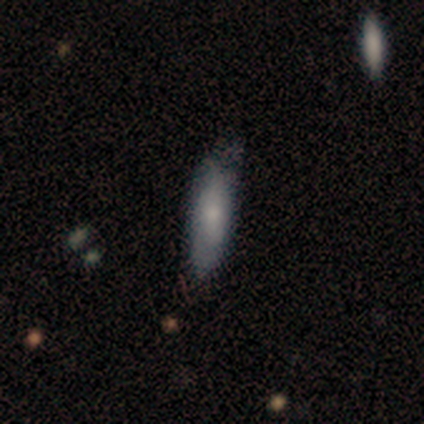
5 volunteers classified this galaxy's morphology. This appears to be a smooth galaxy with no disk features (60%) that is cigar-shaped (67%). Merging: none (80%).